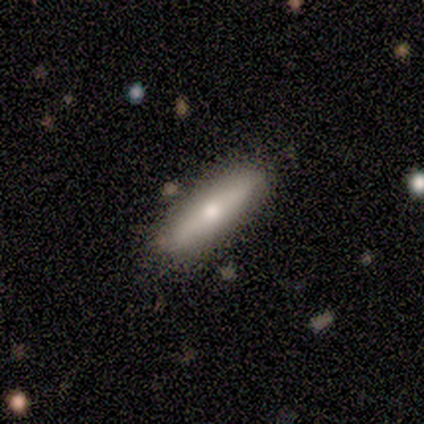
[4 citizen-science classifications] This appears to be a smooth galaxy with no disk features (50%, tied with featured or disk) that is cigar-shaped (100%). Merging: none (100%).